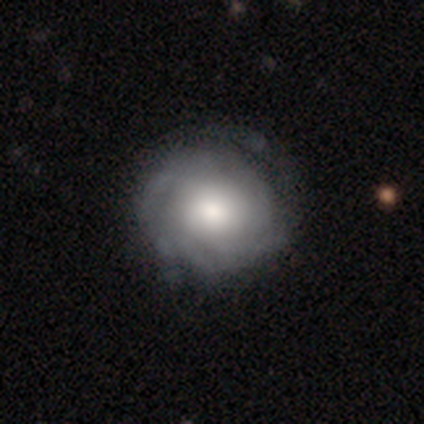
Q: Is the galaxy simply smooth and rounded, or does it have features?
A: featured or disk — 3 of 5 (60%).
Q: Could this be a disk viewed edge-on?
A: no — 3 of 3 (100%).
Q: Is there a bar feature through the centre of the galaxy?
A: no — 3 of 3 (100%).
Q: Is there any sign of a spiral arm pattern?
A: yes — 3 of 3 (100%).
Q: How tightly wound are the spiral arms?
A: tight — 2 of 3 (67%).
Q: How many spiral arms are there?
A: can't tell — 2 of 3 (67%).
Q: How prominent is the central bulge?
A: large — 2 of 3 (67%).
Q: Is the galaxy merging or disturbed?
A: none — 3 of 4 (75%).